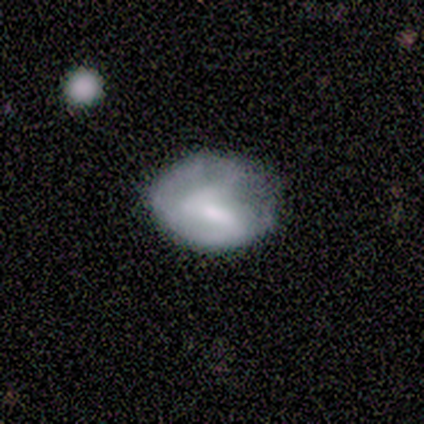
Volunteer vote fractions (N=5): This is likely a featured or disk galaxy (60%). It is likely not viewed edge-on (67%). Bar: possibly weak (50%, tied with no). Spiral arm pattern: possibly yes (50%, tied with no). Spiral arm count: clearly 2 (100%). Spiral winding: clearly tight (100%). Central bulge: possibly moderate (50%, tied with small). Merging: marginally none (40%, tied with minor disturbance).